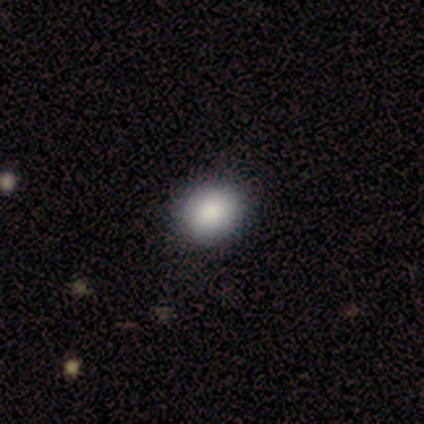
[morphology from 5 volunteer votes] smooth_or_featured: smooth (p=1.00)
how_rounded: round (p=0.80) [alt: in between p=0.20]
merging: none (p=0.80) [alt: minor disturbance p=0.20]